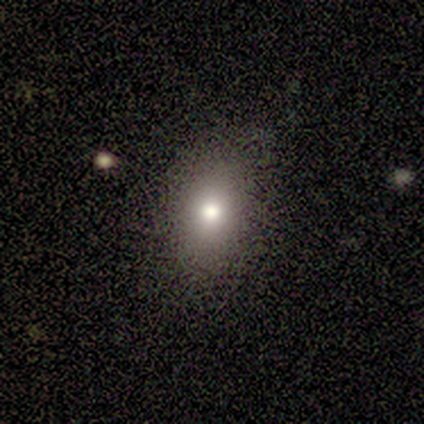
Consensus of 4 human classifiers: Overall: smooth (75%). How rounded: in between (67%; round 33%). Merging: none (100%).